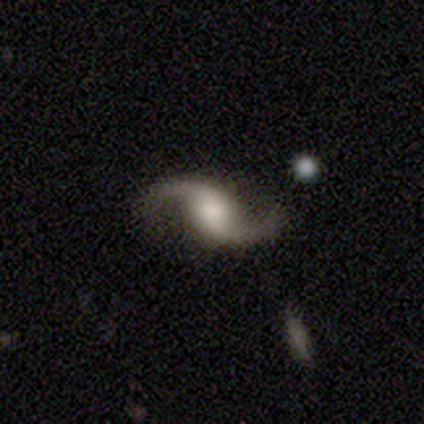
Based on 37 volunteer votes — Smooth or featured?
  - featured or disk: 95% *
  - smooth: 3%
  - star or artifact: 3%
Edge-on disk?
  - no: 97% *
  - yes: 3%
Bar?
  - no: 56% *
  - weak: 38%
  - strong: 6%
Spiral arms?
  - yes: 100% *
  - no: 0%
Spiral winding?
  - loose: 91% *
  - medium: 9%
  - tight: 0%
Spiral arm count?
  - 2: 94% *
  - 1: 6%
  - 3: 0%
  - 4: 0%
  - more than 4: 0%
  - can't tell: 0%
Bulge size?
  - moderate: 35% *
  - large: 32%
  - dominant: 18%
  - small: 12%
  - none: 3%
Merging?
  - none: 78% *
  - minor disturbance: 14%
  - major disturbance: 6%
  - merger: 3%